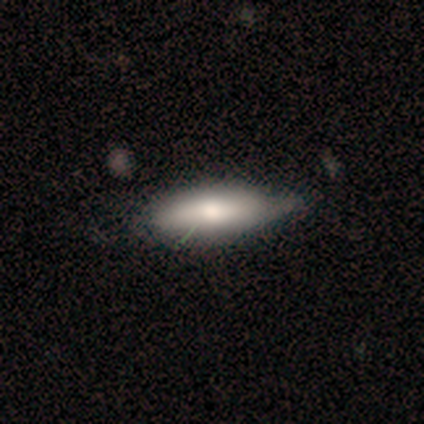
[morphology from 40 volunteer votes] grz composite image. It shows a smooth galaxy with no disk features (75%) that is in between round and cigar-shaped (53%). Merging: none (32%).